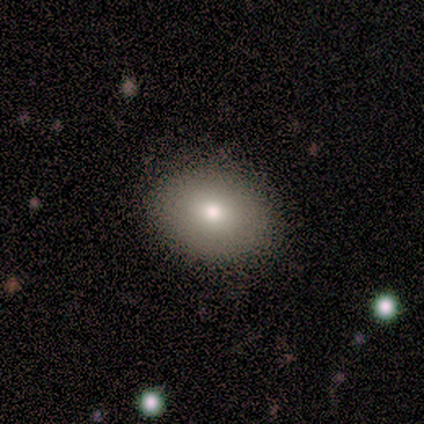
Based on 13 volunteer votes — Smooth or featured?
  - smooth: 69% *
  - featured or disk: 15%
  - star or artifact: 15%
How rounded?
  - in between: 67% *
  - round: 33%
  - cigar-shaped: 0%
Merging?
  - none: 100% *
  - minor disturbance: 0%
  - major disturbance: 0%
  - merger: 0%